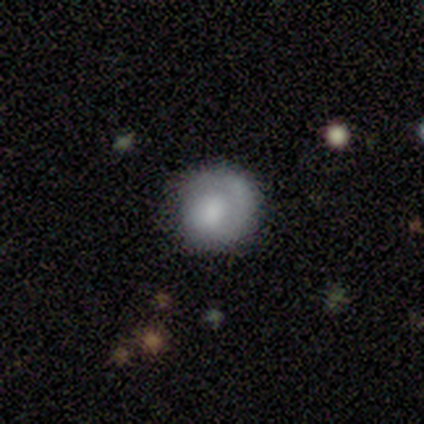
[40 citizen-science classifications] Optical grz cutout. It shows a smooth galaxy with no disk features (68%) that is round (93%). Merging: none (81%).